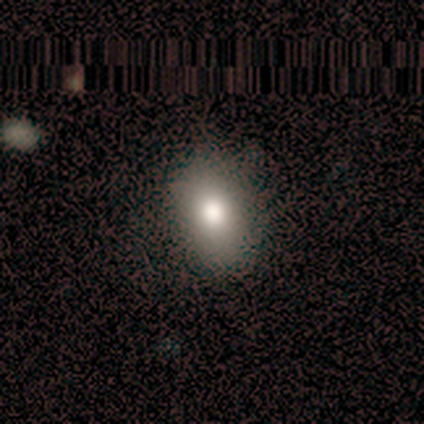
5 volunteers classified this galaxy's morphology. Smooth or featured? smooth (100%)
How rounded? in between (80%)
Merging? none (60%)